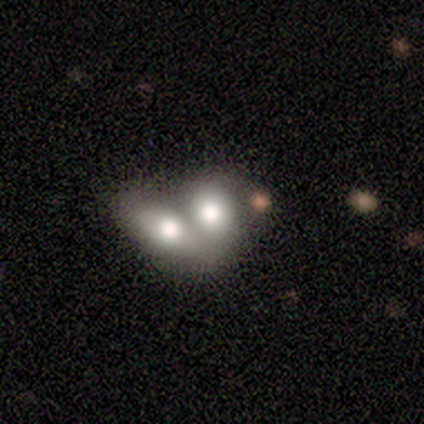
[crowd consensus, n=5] Smooth or featured? 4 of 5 (80%) said smooth. How rounded? 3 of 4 (75%) said in between. Merging? 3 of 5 (60%) said merger.